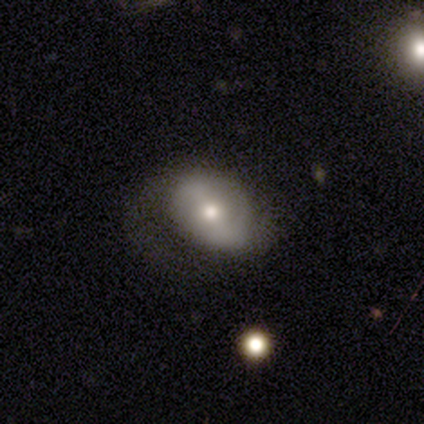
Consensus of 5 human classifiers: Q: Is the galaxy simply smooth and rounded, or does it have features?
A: featured or disk — 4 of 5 (80%).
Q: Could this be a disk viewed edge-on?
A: no — 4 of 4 (100%).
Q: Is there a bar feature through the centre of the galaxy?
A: no — 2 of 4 (50%).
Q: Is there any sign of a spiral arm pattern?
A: yes — 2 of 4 (50%, tied with no).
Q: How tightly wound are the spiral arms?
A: loose — 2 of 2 (100%).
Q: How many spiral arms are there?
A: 2 — 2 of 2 (100%).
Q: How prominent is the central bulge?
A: moderate — 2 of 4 (50%, tied with small).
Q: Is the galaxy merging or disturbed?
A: minor disturbance — 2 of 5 (40%, tied with major disturbance).